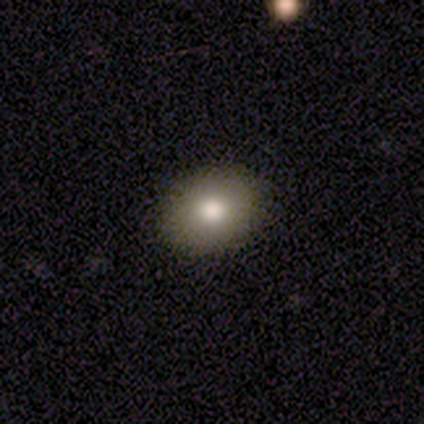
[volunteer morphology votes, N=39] Smooth or featured: smooth — 74% (featured or disk — 13%)
How rounded: in between — 55% (round — 45%)
Merging: none — 88% (minor disturbance — 9%)